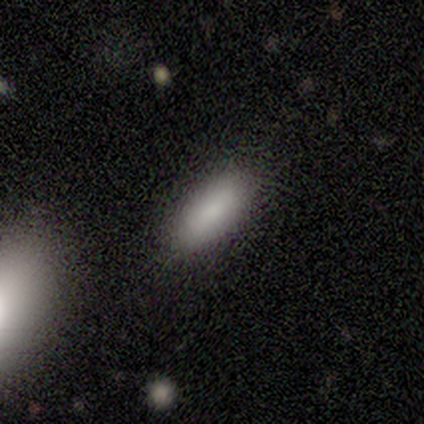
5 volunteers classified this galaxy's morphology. smooth_or_featured: smooth (p=1.00)
how_rounded: in between (p=0.60) [alt: cigar-shaped p=0.40]
merging: none (p=0.80) [alt: major disturbance p=0.20]